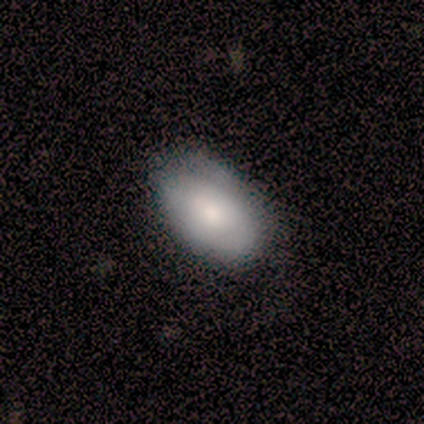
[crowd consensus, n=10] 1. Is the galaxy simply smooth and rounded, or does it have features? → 70% smooth, 20% featured or disk, 10% star or artifact.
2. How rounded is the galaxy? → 86% in between, 14% cigar-shaped, 0% round.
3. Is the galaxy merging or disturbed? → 56% none, 44% minor disturbance, 0% major disturbance, 0% merger.